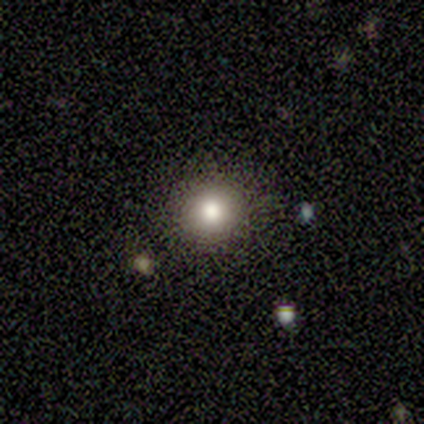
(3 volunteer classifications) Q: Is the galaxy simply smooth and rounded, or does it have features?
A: smooth — 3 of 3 (100%).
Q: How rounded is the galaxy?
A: round — 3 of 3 (100%).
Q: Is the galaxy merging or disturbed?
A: none — 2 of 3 (67%).